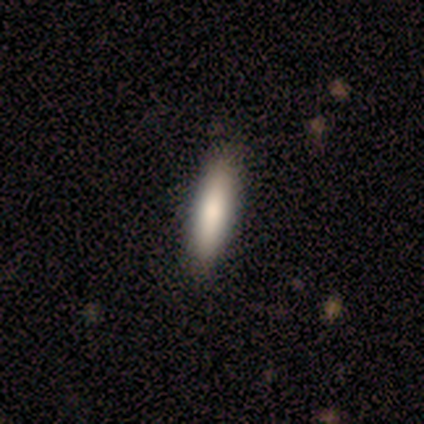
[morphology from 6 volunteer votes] Smooth or featured? smooth (67%)
How rounded? cigar-shaped (75%)
Merging? none (67%)